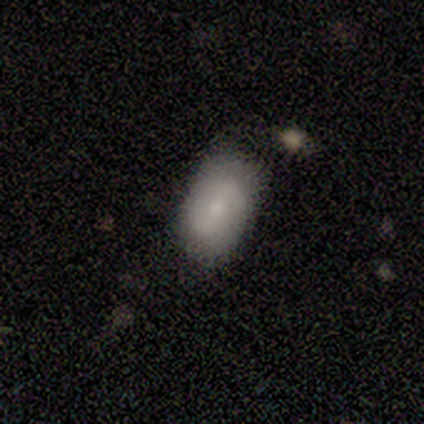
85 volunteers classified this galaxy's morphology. smooth_or_featured: smooth (p=0.59) [alt: featured or disk p=0.35]
how_rounded: in between (p=0.84) [alt: round p=0.14]
merging: none (p=0.71) [alt: minor disturbance p=0.20]